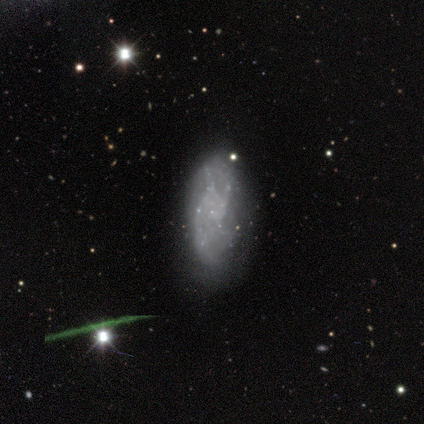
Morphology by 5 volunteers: Smooth or featured? smooth (60%)
How rounded? in between (100%)
Merging? none (50%, tied with minor disturbance)